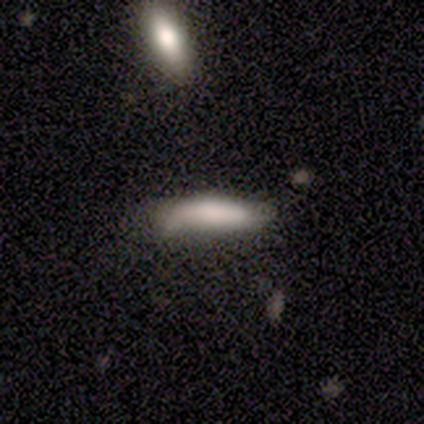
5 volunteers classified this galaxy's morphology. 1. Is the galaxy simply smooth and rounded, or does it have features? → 40% smooth (tied), 40% star or artifact (tied), 20% featured or disk.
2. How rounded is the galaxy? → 50% in between (tied), 50% cigar-shaped (tied), 0% round.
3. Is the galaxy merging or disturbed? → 67% none, 33% minor disturbance, 0% major disturbance, 0% merger.